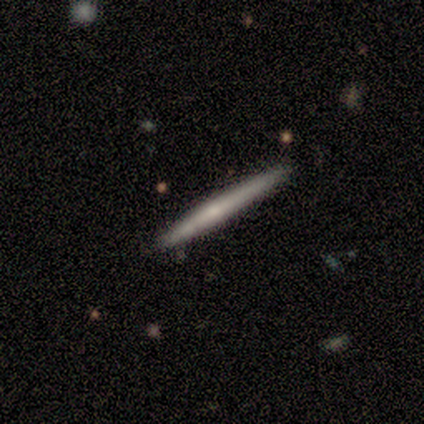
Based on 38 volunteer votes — Smooth or featured: smooth — 50% (featured or disk — 45%)
How rounded: cigar-shaped — 100%
Merging: none — 83% (minor disturbance — 17%)